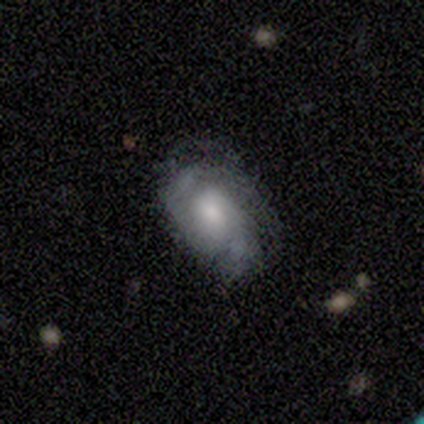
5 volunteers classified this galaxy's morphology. featured or disk 100%, smooth 0%, star or artifact 0%. Down the decision tree: edge-on disk — no (100%); bar — no (80%); spiral arms — yes (100%); spiral arm count — 2 (60%); spiral winding — medium (80%); bulge size — moderate (60%); merging — none (80%).